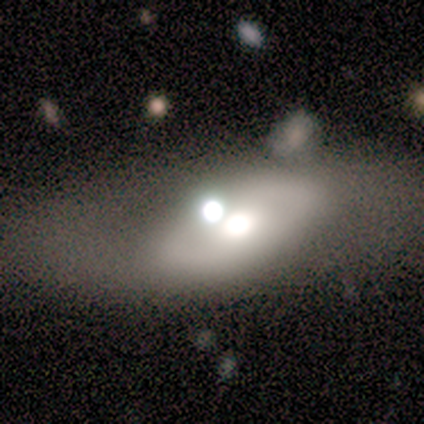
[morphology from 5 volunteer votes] This is marginally a featured or disk galaxy (40%, tied with star or artifact). It is clearly not viewed edge-on (100%). Bar: possibly strong (50%, tied with no). Spiral arm pattern: clearly no (100%). Central bulge: clearly moderate (100%). Merging: marginally none (33%, tied with major disturbance and merger).